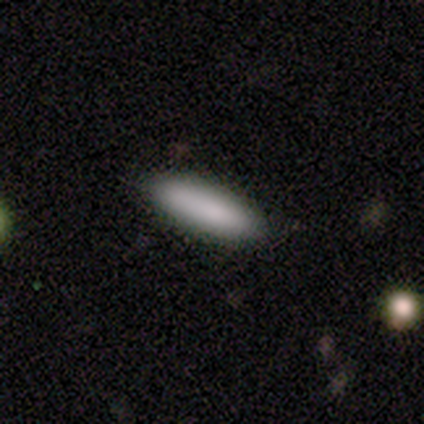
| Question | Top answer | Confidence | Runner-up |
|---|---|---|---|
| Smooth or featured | smooth | 82% | featured or disk (10%) |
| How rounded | cigar-shaped | 75% | in between (25%) |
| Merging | none | 83% | minor disturbance (17%) |